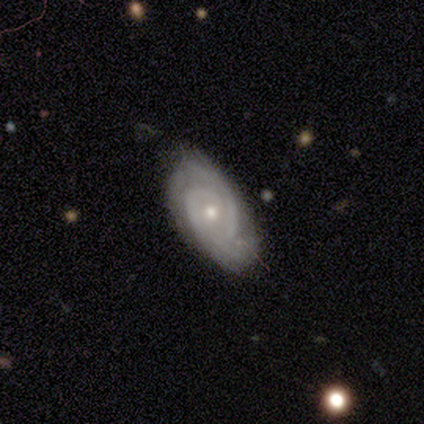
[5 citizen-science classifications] A featured or disk galaxy (100%) with no bar (100%), 2 (100%) tight (60%) spiral arms (100%) and a small central bulge (80%). Merging: none (80%).